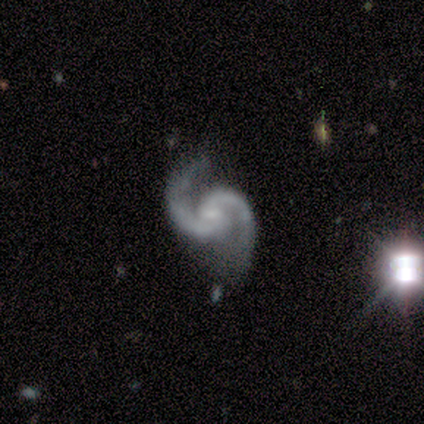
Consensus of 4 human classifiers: Morphology: type=featured or disk (75%); edge-on=no (100%); bar=no (67%); spiral arms=yes (100%); winding=medium (67%); arm count=2 (100%); bulge=small (67%); merging=none (100%).